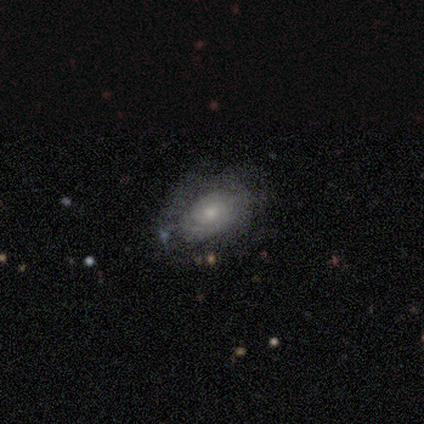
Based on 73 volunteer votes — Smooth or featured? featured or disk (66%)
Edge-on disk? no (92%)
Bar? no (89%)
Spiral arms? yes (59%)
Spiral winding? tight (81%)
Spiral arm count? can't tell (50%)
Bulge size? small (52%)
Merging? none (62%)